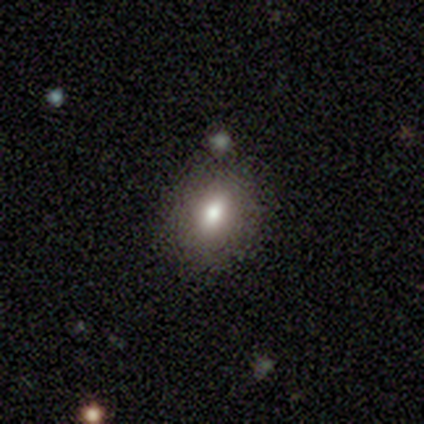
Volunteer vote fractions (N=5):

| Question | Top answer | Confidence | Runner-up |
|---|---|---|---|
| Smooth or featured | smooth | 60% | star or artifact (40%) |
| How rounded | in between | 67% | round (33%) |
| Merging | none | 100% | — |